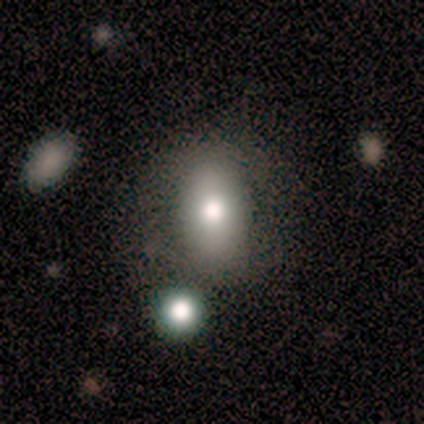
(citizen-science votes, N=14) smooth 100%, featured or disk 0%, star or artifact 0%. Down the decision tree: how rounded — in between (79%); merging — none (93%).